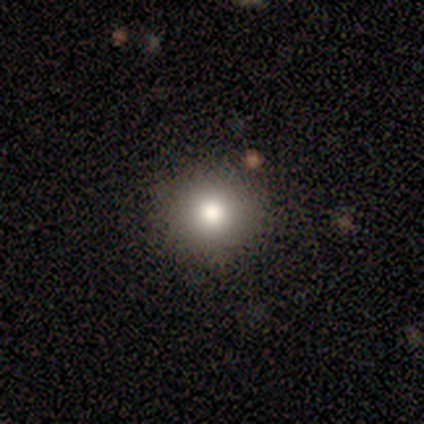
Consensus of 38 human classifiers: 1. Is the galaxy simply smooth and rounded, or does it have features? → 79% smooth, 13% featured or disk, 8% star or artifact.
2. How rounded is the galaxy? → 93% round, 7% in between, 0% cigar-shaped.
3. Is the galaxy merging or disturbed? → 86% none, 11% minor disturbance, 3% major disturbance, 0% merger.